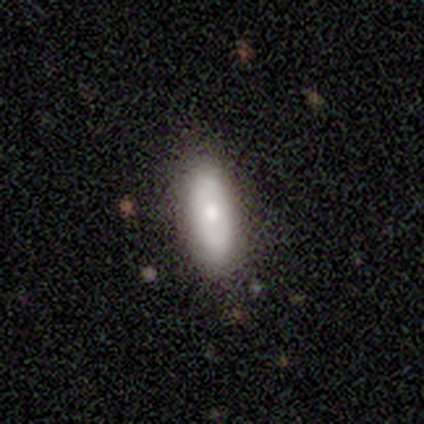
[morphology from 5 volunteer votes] type=smooth (40%, tied with featured or disk); roundness=in between (50%, tied with cigar-shaped); merging=none (75%).